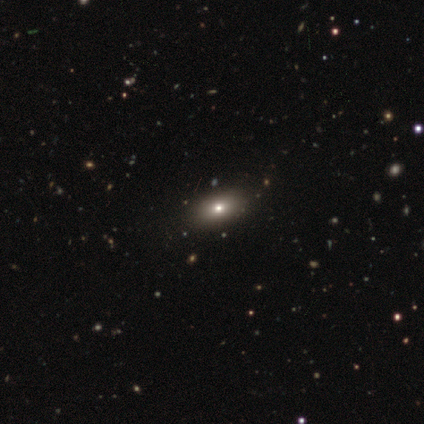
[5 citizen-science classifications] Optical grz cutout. It shows a smooth galaxy with no disk features (40%, tied with featured or disk) that is round (50%, tied with in between). Merging: none (100%).